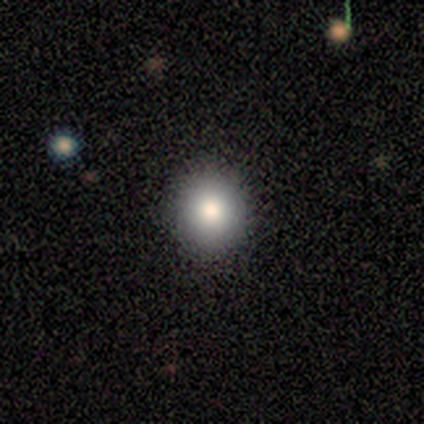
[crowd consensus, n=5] This is clearly a smooth galaxy (80%). How rounded: clearly round (100%). Merging: clearly none (100%).